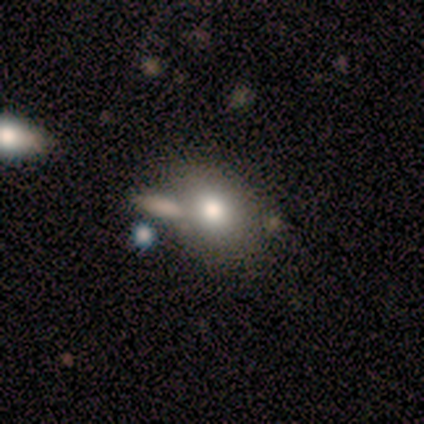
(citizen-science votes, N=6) A smooth galaxy with no disk features (83%) that is in between round and cigar-shaped (60%).

Vote fractions:
- Smooth or featured? smooth: 83% / featured or disk: 17% / star or artifact: 0%
- How rounded? in between: 60% / round: 40% / cigar-shaped: 0%
- Merging? none: 83% / minor disturbance: 17% / major disturbance: 0% / merger: 0%